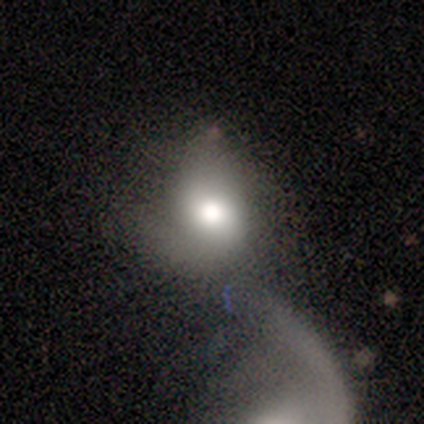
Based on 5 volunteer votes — Morphology: type=featured or disk (60%); edge-on=no (100%); bar=no (100%); spiral arms=no (67%); bulge=moderate (67%); merging=merger (80%).